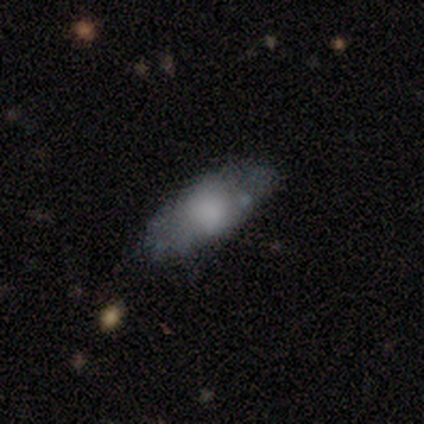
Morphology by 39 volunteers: smooth 79%, featured or disk 15%, star or artifact 5%. Down the decision tree: how rounded — in between (81%); merging — none (73%).